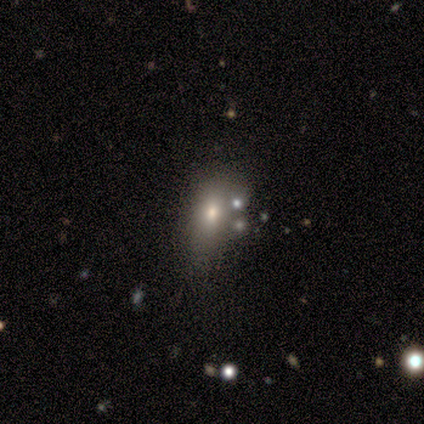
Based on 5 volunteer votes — Smooth or featured?
  - smooth: 60% *
  - star or artifact: 40%
  - featured or disk: 0%
How rounded?
  - in between: 100% *
  - round: 0%
  - cigar-shaped: 0%
Merging?
  - none: 67% *
  - minor disturbance: 33%
  - major disturbance: 0%
  - merger: 0%